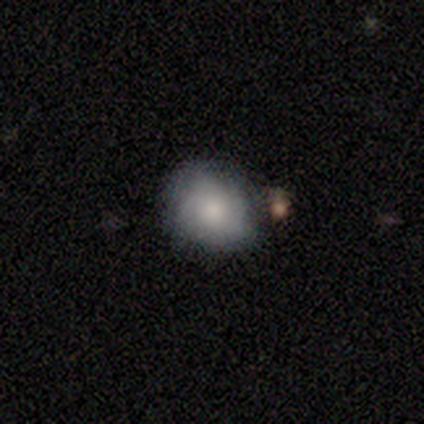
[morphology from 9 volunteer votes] type=smooth (44%); roundness=round (75%); merging=none (57%).